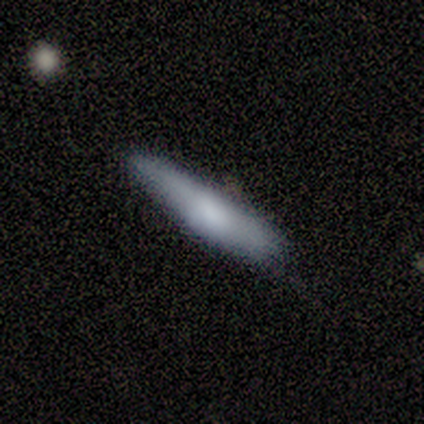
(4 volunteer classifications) smooth-or-featured: smooth: 75% | featured or disk: 25% | star or artifact: 0%
  how-rounded: in between: 67% | cigar-shaped: 33% | round: 0%
  merging: none: 75% | minor disturbance: 25% | major disturbance: 0% | merger: 0%